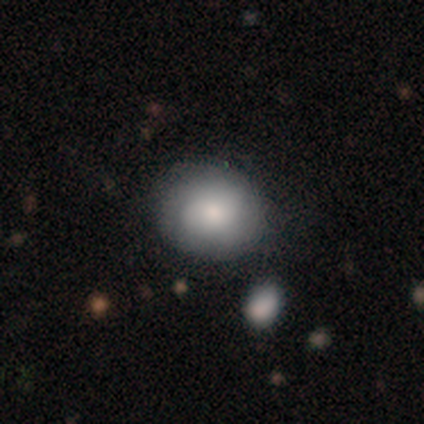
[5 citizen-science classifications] Smooth or featured? smooth (80%)
How rounded? round (75%)
Merging? none (60%)